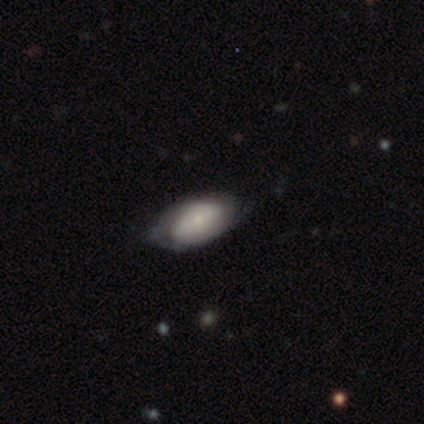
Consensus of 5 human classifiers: Smooth or featured? 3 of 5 (60%) said smooth. How rounded? 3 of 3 (100%) said in between. Merging? 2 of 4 (50%, tied with minor disturbance) said none.